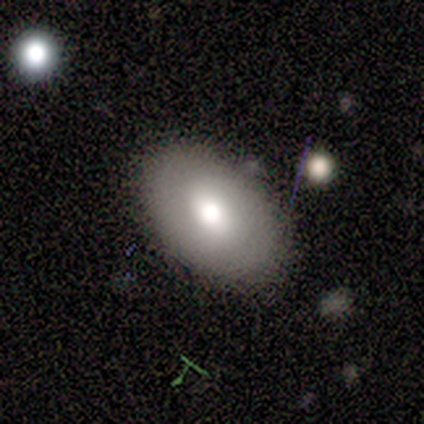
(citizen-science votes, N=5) Smooth or featured? smooth (60%)
How rounded? in between (100%)
Merging? none (100%)